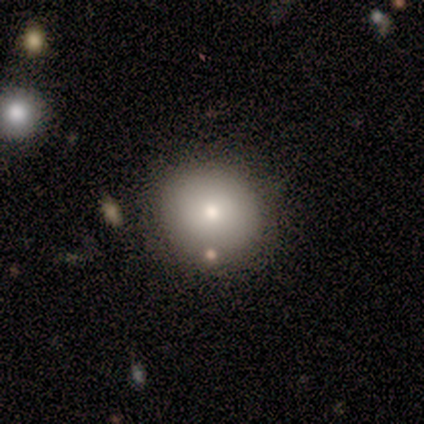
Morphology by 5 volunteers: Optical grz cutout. It shows a smooth galaxy with no disk features (100%) that is round (100%). Merging: none (60%).